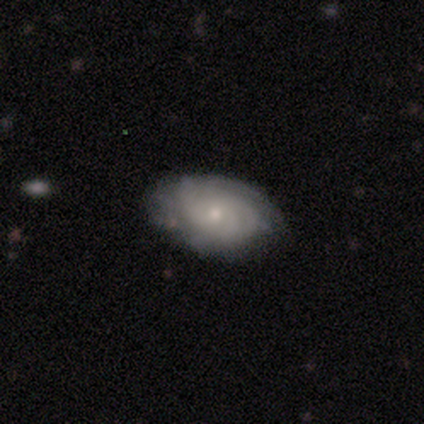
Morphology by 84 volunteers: featured or disk 67%, smooth 26%, star or artifact 7%. Down the decision tree: edge-on disk — no (91%); bar — no (86%); spiral arms — yes (90%); spiral arm count — can't tell (67%); spiral winding — tight (76%); bulge size — small (67%); merging — none (81%).